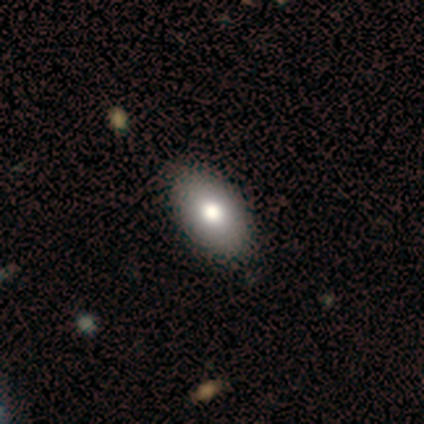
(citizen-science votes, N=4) Volunteers were most divided on "bulge size" (2-way tie): large: 50%, moderate: 50%, dominant: 0%, small: 0%, none: 0%. More confident: bar — no (100%); spiral arms — no (100%); smooth or featured — featured or disk (75%); merging — none (75%); edge-on disk — no (67%).